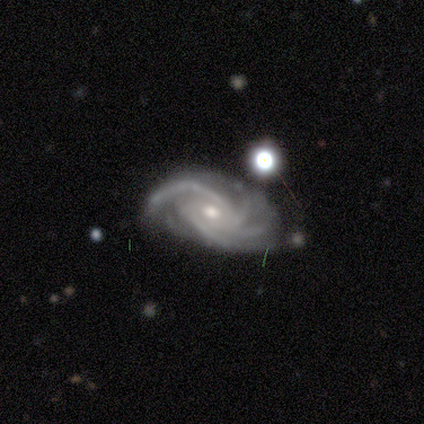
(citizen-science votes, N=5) Morphology: type=featured or disk (100%); edge-on=no (100%); bar=no (80%); spiral arms=yes (100%); winding=tight (80%); arm count=4 (80%); bulge=moderate (100%); merging=none (60%).